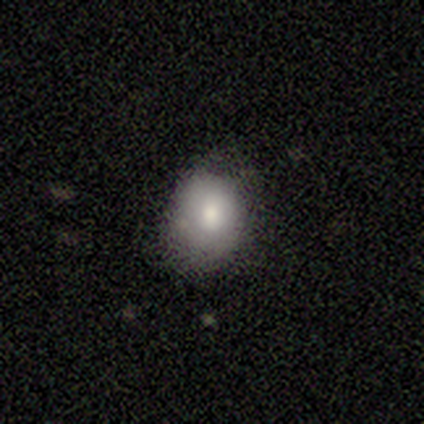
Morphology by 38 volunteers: Smooth or featured?
  - smooth: 76% *
  - star or artifact: 16%
  - featured or disk: 8%
How rounded?
  - in between: 66% *
  - round: 34%
  - cigar-shaped: 0%
Merging?
  - none: 62% *
  - minor disturbance: 28%
  - merger: 6%
  - major disturbance: 3%